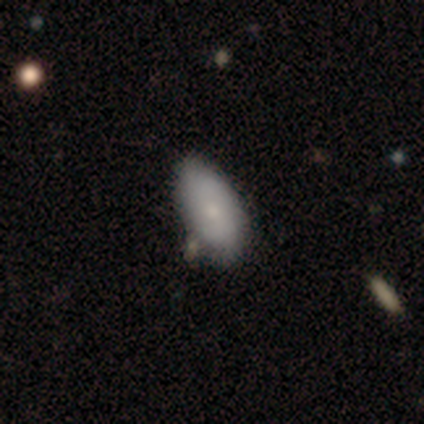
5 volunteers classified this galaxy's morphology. A smooth galaxy with no disk features (100%) that is in between round and cigar-shaped (100%).

Vote fractions:
- Smooth or featured? smooth: 100% / featured or disk: 0% / star or artifact: 0%
- How rounded? in between: 100% / round: 0% / cigar-shaped: 0%
- Merging? none: 100% / minor disturbance: 0% / major disturbance: 0% / merger: 0%